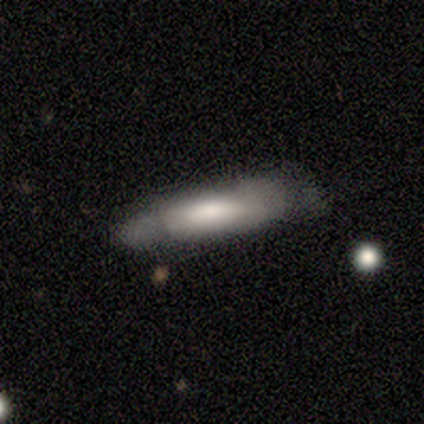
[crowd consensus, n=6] smooth 67%, featured or disk 33%, star or artifact 0%. Down the decision tree: how rounded — cigar-shaped (75%); merging — none (67%).